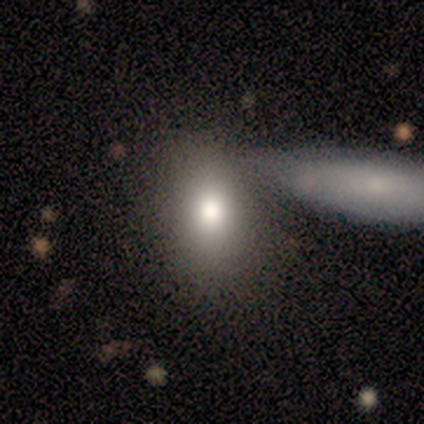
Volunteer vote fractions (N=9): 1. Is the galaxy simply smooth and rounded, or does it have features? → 67% smooth, 33% featured or disk, 0% star or artifact.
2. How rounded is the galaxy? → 83% in between, 17% round, 0% cigar-shaped.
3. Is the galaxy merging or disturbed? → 44% none (tied), 44% merger (tied), 11% minor disturbance, 0% major disturbance.